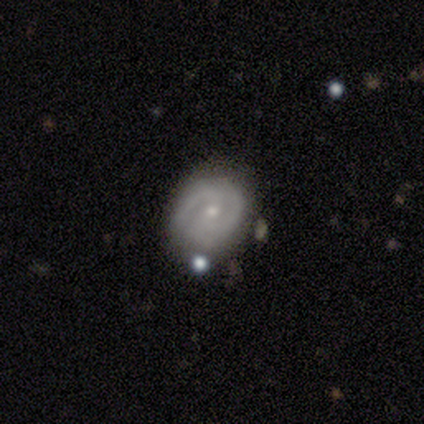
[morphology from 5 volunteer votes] smooth-or-featured: smooth: 60% | featured or disk: 40% | star or artifact: 0%
  how-rounded: in between: 67% | round: 33% | cigar-shaped: 0%
  merging: none: 80% | major disturbance: 20% | minor disturbance: 0% | merger: 0%